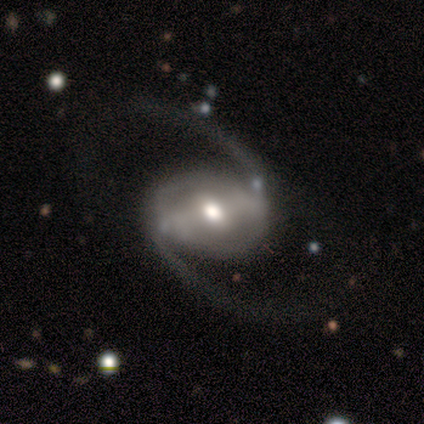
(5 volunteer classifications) Smooth or featured? 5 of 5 (100%) said featured or disk. Edge-on disk? 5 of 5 (100%) said no. Bar? 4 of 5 (80%) said strong. Spiral arms? 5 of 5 (100%) said yes. Spiral winding? 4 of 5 (80%) said loose. Spiral arm count? 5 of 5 (100%) said 2. Bulge size? 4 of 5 (80%) said moderate. Merging? 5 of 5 (100%) said none.